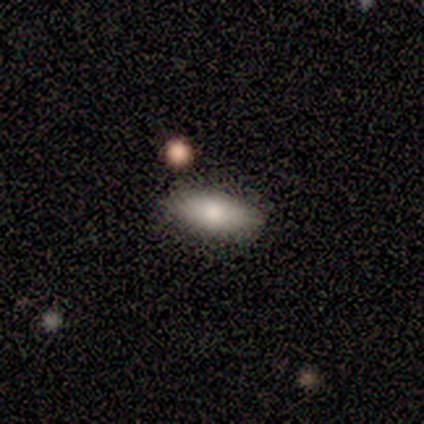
Q: Smooth or featured?
A: smooth (100%)
Q: How rounded?
A: in between (60%); runner-up: round (20%)
Q: Merging?
A: none (80%); runner-up: merger (20%)